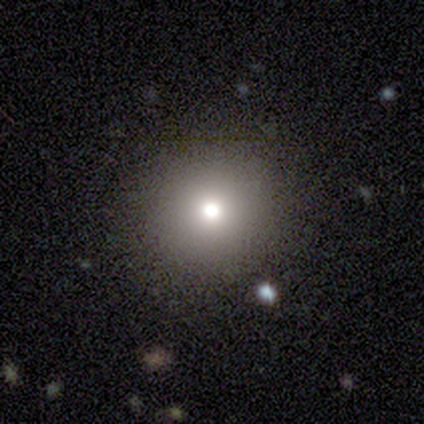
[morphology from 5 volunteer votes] This appears to be a smooth galaxy with no disk features (60%) that is round (100%). Merging: none (100%).